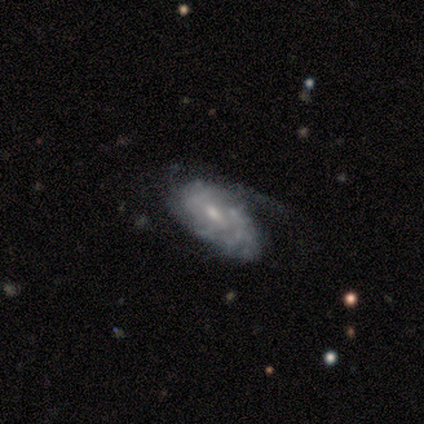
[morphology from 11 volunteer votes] Smooth or featured? featured or disk (82%)
Edge-on disk? no (100%)
Bar? no (67%)
Spiral arms? yes (78%)
Spiral winding? tight (43%, tied with loose)
Spiral arm count? can't tell (86%)
Bulge size? small (89%)
Merging? none (50%, tied with minor disturbance)